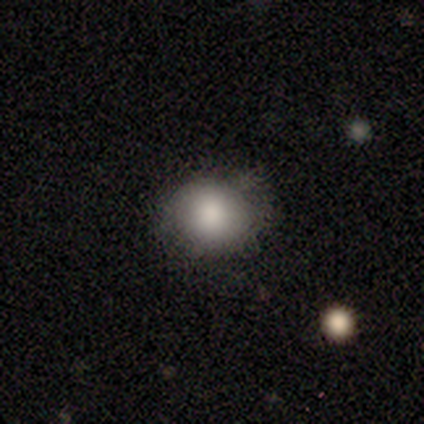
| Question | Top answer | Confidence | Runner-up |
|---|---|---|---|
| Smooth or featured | smooth | 60% | star or artifact (40%) |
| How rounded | round | 67% | in between (33%) |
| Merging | none | 100% | — |